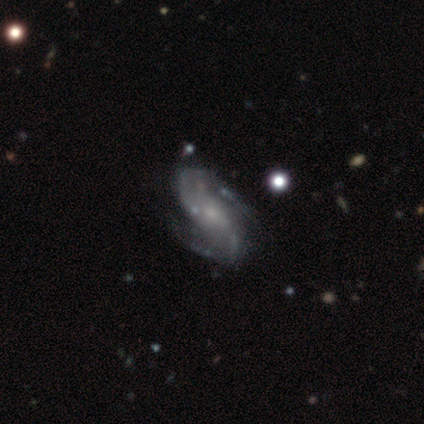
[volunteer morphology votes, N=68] Smooth or featured: featured or disk — 93% (smooth — 6%)
Edge-on disk: no — 94% (yes — 6%)
Bar: no — 61% (weak — 29%)
Spiral arms: yes — 90% (no — 10%)
Spiral winding: loose — 49% (medium — 42%)
Spiral arm count: 2 — 85% (3 — 8%)
Bulge size: small — 59% (none — 20%)
Merging: none — 49% (minor disturbance — 30%)